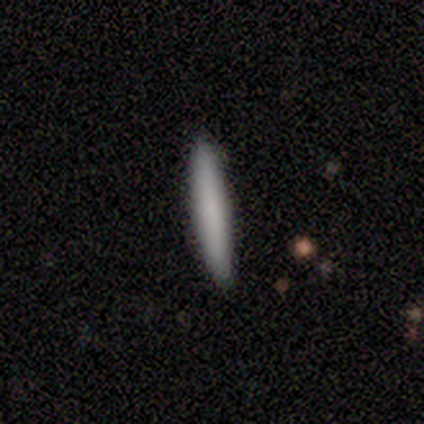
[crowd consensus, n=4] smooth 100%, featured or disk 0%, star or artifact 0%. Down the decision tree: how rounded — cigar-shaped (100%); merging — none (75%).